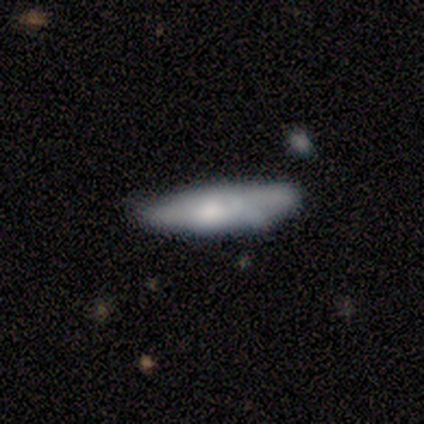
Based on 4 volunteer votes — Q: Smooth or featured?
A: smooth (100%)
Q: How rounded?
A: cigar-shaped (75%); runner-up: in between (25%)
Q: Merging?
A: none (50%); runner-up: minor disturbance (25%)